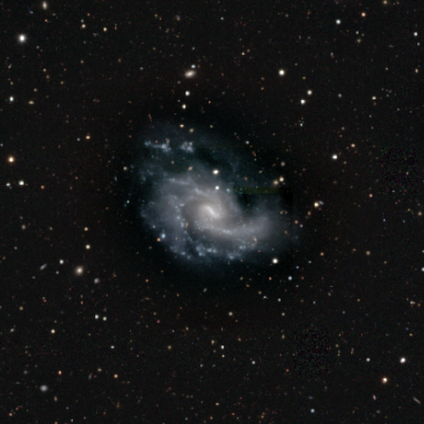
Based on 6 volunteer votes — Smooth or featured? featured or disk (100%)
Edge-on disk? no (100%)
Bar? strong (50%, tied with weak)
Spiral arms? yes (100%)
Spiral winding? tight (67%)
Spiral arm count? 2 (50%)
Bulge size? small (67%)
Merging? none (67%)